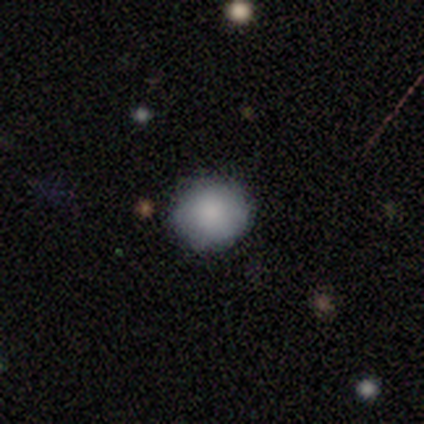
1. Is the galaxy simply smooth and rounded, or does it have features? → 80% smooth, 20% featured or disk, 0% star or artifact.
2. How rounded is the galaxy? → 100% round, 0% in between, 0% cigar-shaped.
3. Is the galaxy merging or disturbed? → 100% none, 0% minor disturbance, 0% major disturbance, 0% merger.